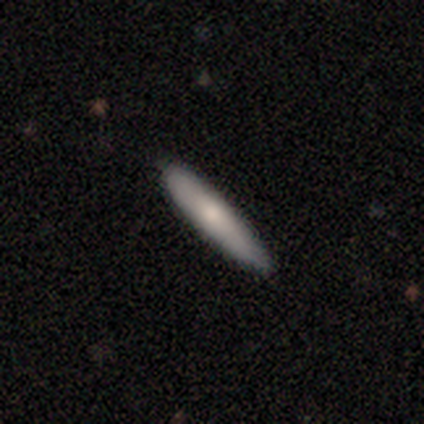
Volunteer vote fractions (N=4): Smooth or featured? smooth (50%, tied with featured or disk)
How rounded? cigar-shaped (100%)
Merging? none (75%)